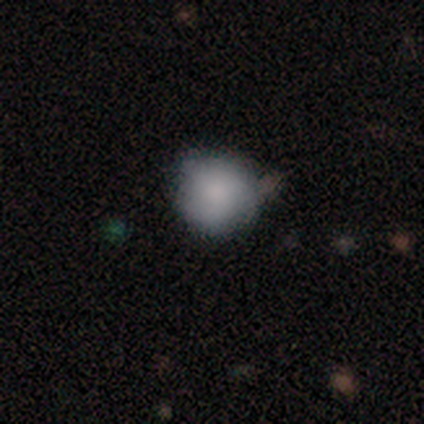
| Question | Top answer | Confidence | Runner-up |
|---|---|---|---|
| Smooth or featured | smooth | 100% | — |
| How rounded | round | 100% | — |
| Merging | none | 50% | tied: minor disturbance (50%) |